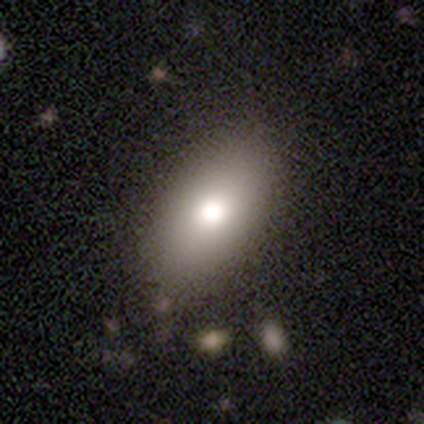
Smooth or featured? 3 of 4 (75%) said smooth. How rounded? 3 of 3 (100%) said in between. Merging? 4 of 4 (100%) said none.